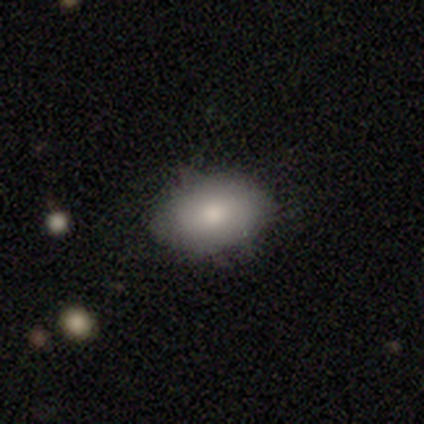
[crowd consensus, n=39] A smooth galaxy with no disk features (85%) that is in between round and cigar-shaped (88%). Merging: none (86%).